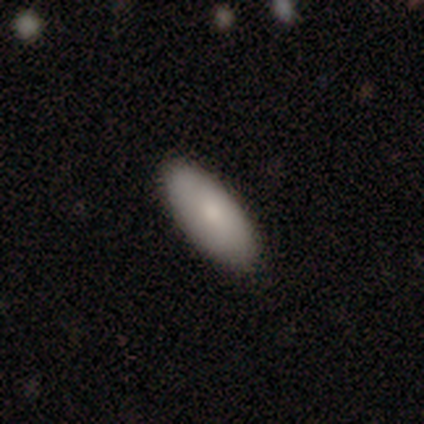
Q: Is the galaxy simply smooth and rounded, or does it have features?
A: smooth — 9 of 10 (90%).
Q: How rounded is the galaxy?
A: in between — 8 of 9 (89%).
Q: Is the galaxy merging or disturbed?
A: none — 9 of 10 (90%).